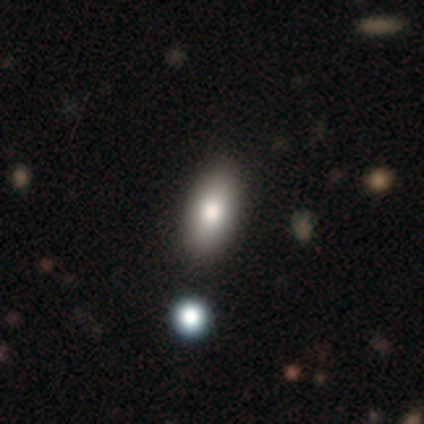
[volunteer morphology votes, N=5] Q: Smooth or featured?
A: smooth (40%); tied with: star or artifact (40%)
Q: How rounded?
A: round (50%); tied with: in between (50%)
Q: Merging?
A: none (67%); runner-up: minor disturbance (33%)